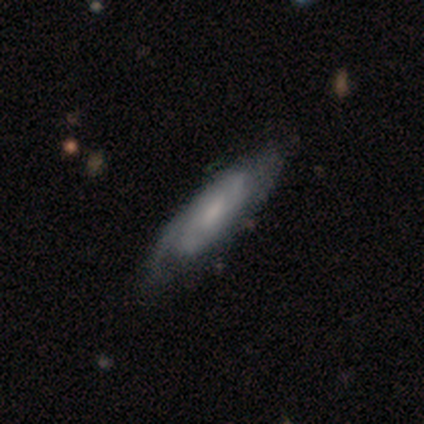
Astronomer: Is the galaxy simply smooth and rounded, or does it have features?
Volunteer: featured or disk — 60% (runner-up: smooth, 40%).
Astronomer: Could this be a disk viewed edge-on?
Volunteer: no — 67%.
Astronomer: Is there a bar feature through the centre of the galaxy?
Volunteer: no — 100%.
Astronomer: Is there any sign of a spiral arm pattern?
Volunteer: yes — 100%.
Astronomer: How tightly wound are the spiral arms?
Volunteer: tight — 50%, tied with medium at 50%.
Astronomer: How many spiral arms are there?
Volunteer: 2 — 50%, tied with can't tell at 50%.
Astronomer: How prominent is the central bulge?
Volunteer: none — 100%.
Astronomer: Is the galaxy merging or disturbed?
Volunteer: none — 60%.